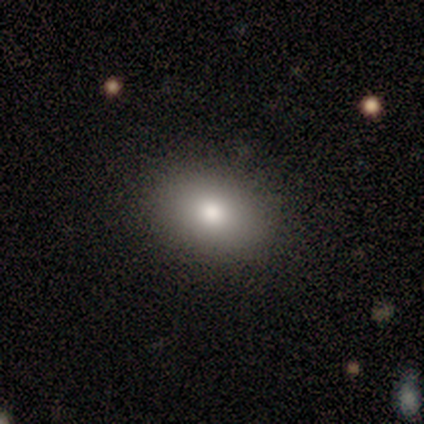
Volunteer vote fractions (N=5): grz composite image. It shows a smooth galaxy with no disk features (60%) that is in between round and cigar-shaped (100%). Merging: none (75%).